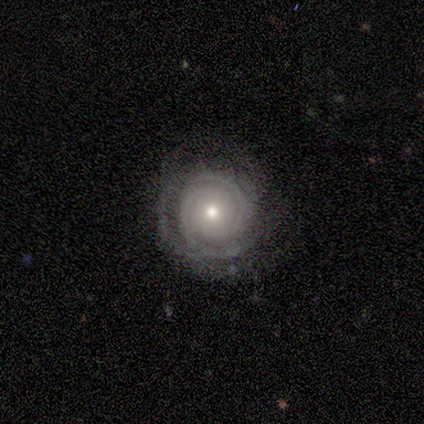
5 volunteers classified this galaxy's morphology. Overall: featured or disk (100%). Edge-on disk: no (100%). Bar: no (100%). Spiral arms: yes (100%). Spiral arm count: 2 (40%, tied with can't tell). Spiral winding: tight (80%). Bulge size: moderate (60%; small 40%). Merging: none (80%).